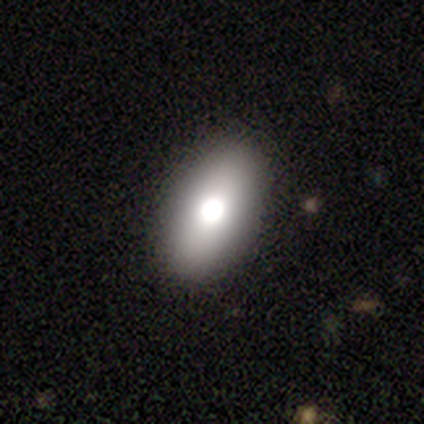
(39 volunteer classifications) smooth_or_featured: smooth (p=0.62) [alt: featured or disk p=0.31]
how_rounded: in between (p=0.96) [alt: round p=0.04]
merging: none (p=0.61) [alt: minor disturbance p=0.08]